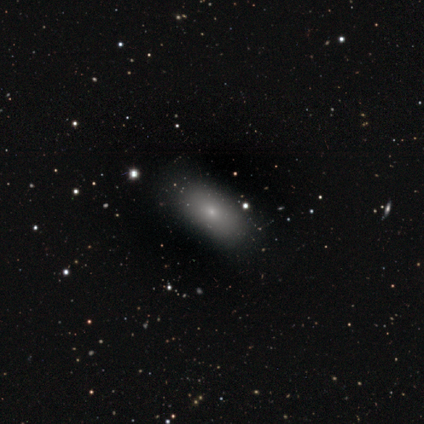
Volunteers were most divided on "smooth or featured": smooth: 71%, featured or disk: 15%, star or artifact: 15%. More confident: how rounded — in between (96%); merging — none (72%).